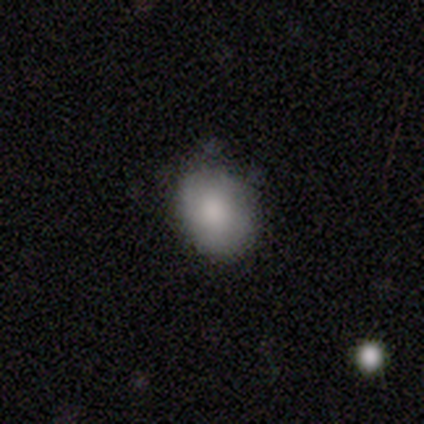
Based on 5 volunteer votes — smooth_or_featured: smooth (p=1.00)
how_rounded: in between (p=0.60) [alt: round p=0.40]
merging: none (p=0.80) [alt: minor disturbance p=0.20]